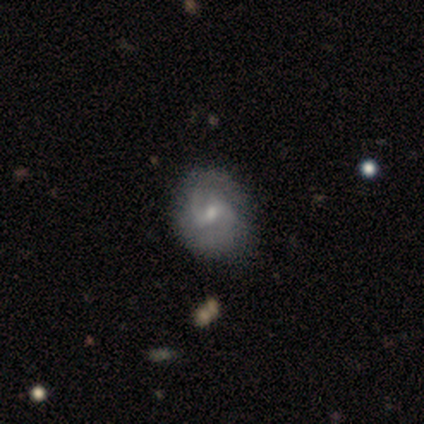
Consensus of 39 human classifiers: smooth_or_featured: featured or disk (p=0.74) [alt: smooth p=0.23]
disk_edge_on: no (p=1.00)
bar: weak (p=0.66) [alt: no p=0.21]
has_spiral_arms: yes (p=1.00)
spiral_winding: loose (p=0.38) [alt: tight p=0.31]
spiral_arm_count: 2 (p=0.83) [alt: can't tell p=0.10]
bulge_size: moderate (p=0.48) [alt: small p=0.45]
merging: none (p=0.71) [alt: minor disturbance p=0.05]